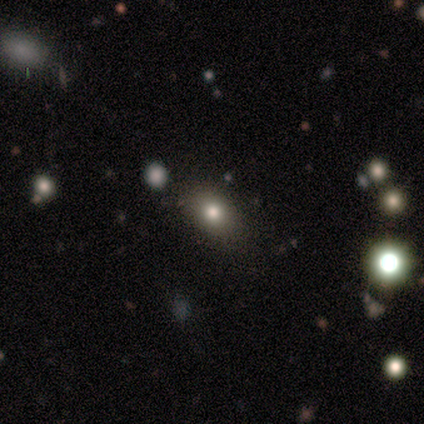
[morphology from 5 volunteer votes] Volunteers were most divided on "how rounded": round: 67%, in between: 33%, cigar-shaped: 0%. More confident: merging — none (100%); smooth or featured — smooth (60%).